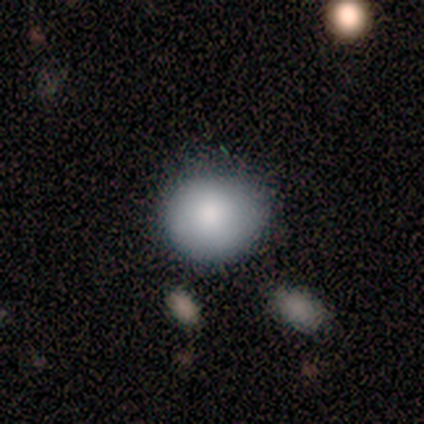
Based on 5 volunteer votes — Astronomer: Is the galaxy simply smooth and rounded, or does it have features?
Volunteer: smooth — 100%.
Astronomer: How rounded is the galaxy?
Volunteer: round — 60% (runner-up: in between, 40%).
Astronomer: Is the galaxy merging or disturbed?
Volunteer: none — 60%.